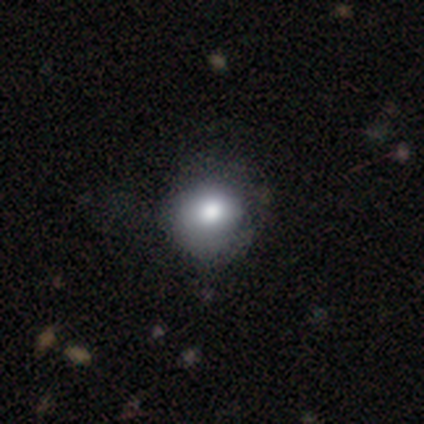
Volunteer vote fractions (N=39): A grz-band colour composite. It shows a smooth galaxy with no disk features (85%) that is round (82%). Merging: none (51%).